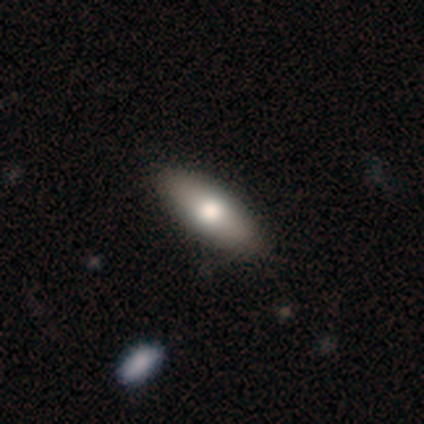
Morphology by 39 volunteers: This appears to be a smooth galaxy with no disk features (56%) that is in between round and cigar-shaped (82%). Merging: none (68%).